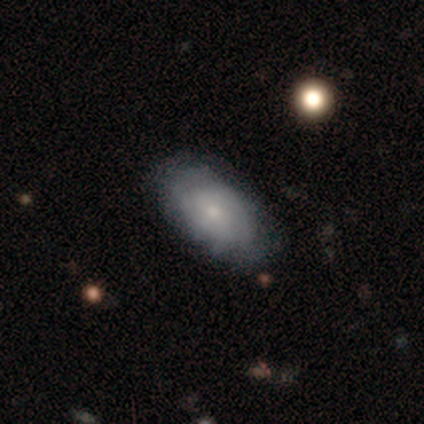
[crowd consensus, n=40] Smooth or featured?
  - smooth: 57% *
  - featured or disk: 42%
  - star or artifact: 0%
How rounded?
  - in between: 87% *
  - round: 9%
  - cigar-shaped: 4%
Merging?
  - none: 70% *
  - minor disturbance: 22%
  - merger: 5%
  - major disturbance: 2%